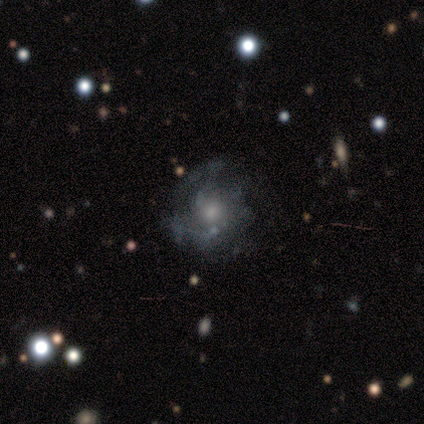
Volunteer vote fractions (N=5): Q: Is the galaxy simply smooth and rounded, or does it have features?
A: smooth — 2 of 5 (40%, tied with featured or disk).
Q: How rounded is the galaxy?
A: round — 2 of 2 (100%).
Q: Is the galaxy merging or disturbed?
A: none — 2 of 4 (50%, tied with major disturbance).